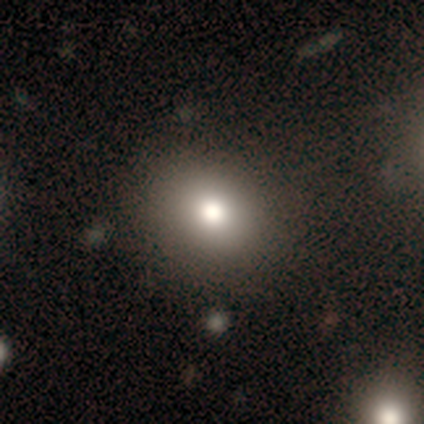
Q: Smooth or featured?
A: smooth (80%); runner-up: star or artifact (20%)
Q: How rounded?
A: in between (75%); runner-up: round (25%)
Q: Merging?
A: none (100%)